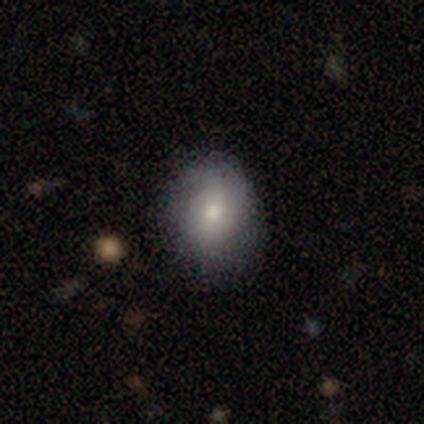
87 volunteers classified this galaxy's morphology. Smooth or featured: smooth — 68% (featured or disk — 25%)
How rounded: round — 51% (in between — 47%)
Merging: none — 69% (minor disturbance — 22%)